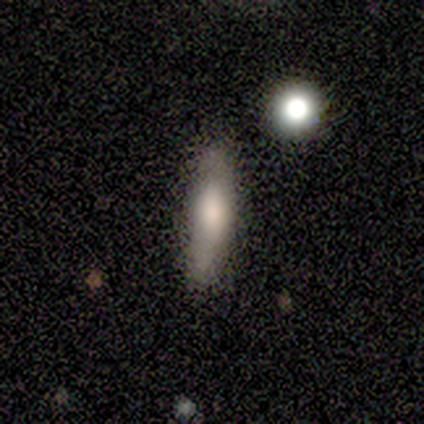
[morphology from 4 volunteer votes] This is likely a smooth galaxy (75%). How rounded: likely cigar-shaped (67%). Merging: likely none (67%).